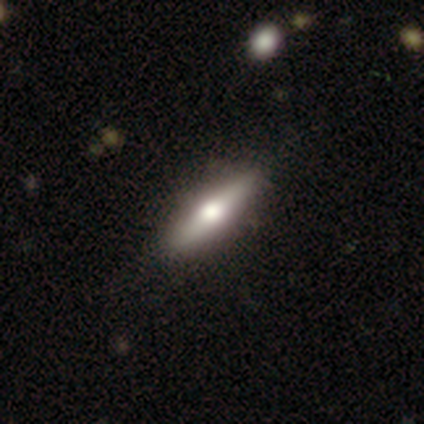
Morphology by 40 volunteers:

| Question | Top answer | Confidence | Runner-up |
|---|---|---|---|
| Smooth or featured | smooth | 50% | featured or disk (42%) |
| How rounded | cigar-shaped | 80% | in between (20%) |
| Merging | none | 57% | minor disturbance (5%) |